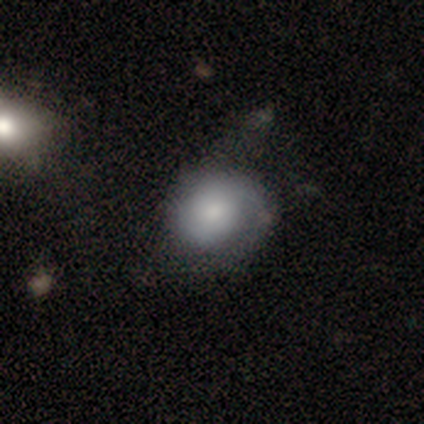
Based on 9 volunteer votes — This is likely a smooth galaxy (67%). How rounded: possibly round (50%, tied with in between). Merging: marginally none (44%, tied with minor disturbance).